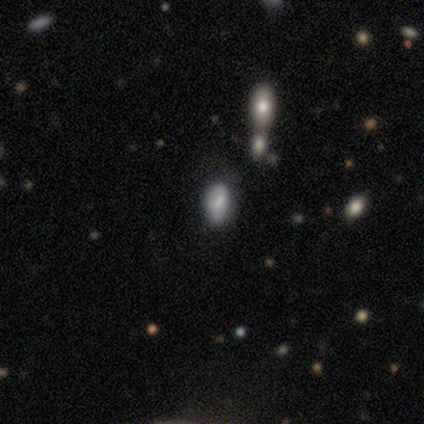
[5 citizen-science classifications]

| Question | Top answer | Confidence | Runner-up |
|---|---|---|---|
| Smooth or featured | smooth | 80% | star or artifact (20%) |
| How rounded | in between | 75% | cigar-shaped (25%) |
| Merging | none | 100% | — |